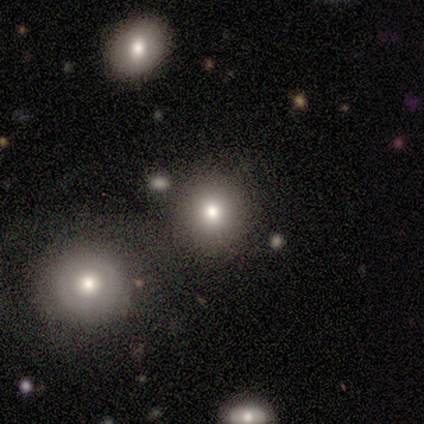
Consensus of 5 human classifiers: A smooth galaxy with no disk features (60%) that is round (67%). Merging: none (75%).